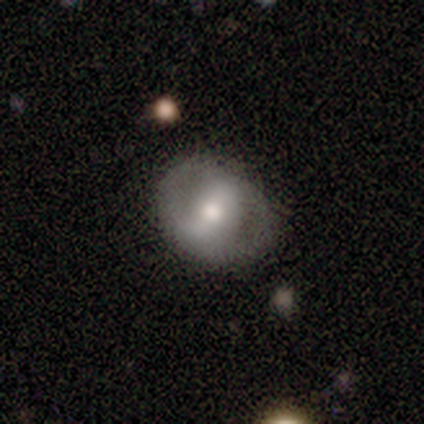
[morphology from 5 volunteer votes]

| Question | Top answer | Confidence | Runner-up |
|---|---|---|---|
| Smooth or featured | smooth | 60% | featured or disk (40%) |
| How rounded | round | 67% | in between (33%) |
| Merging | none | 40% | tied: major disturbance (40%) |